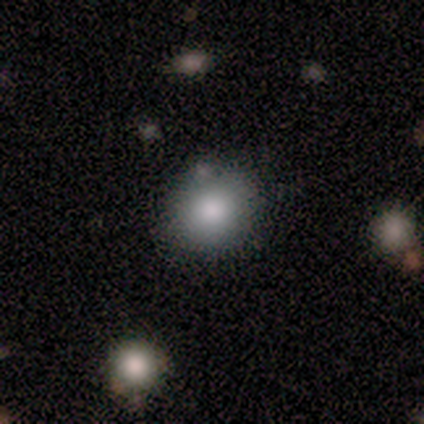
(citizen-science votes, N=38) Smooth or featured? smooth (71%)
How rounded? round (89%)
Merging? none (79%)